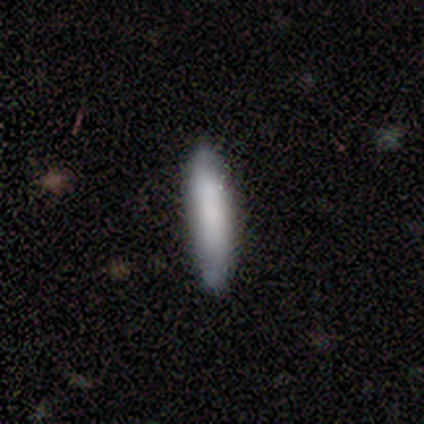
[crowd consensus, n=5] smooth_or_featured: smooth (p=0.80) [alt: star or artifact p=0.20]
how_rounded: cigar-shaped (p=1.00)
merging: none (p=1.00)